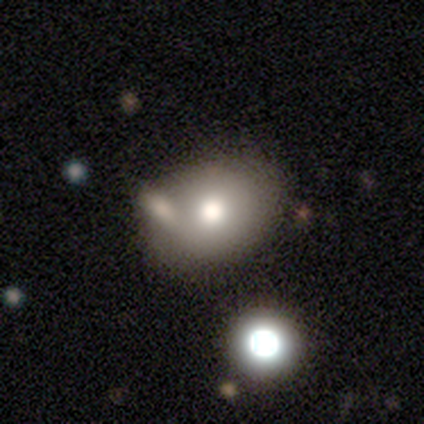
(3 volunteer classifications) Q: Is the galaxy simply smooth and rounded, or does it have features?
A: smooth — 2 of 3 (67%).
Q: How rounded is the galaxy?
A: round — 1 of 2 (50%, tied with in between).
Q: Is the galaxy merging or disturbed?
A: none — 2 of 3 (67%).